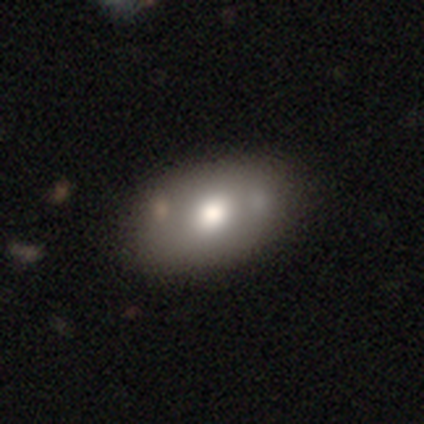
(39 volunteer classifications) Smooth or featured: smooth — 49% (featured or disk — 33%)
How rounded: in between — 89% (round — 11%)
Merging: none — 50% (merger — 12%)